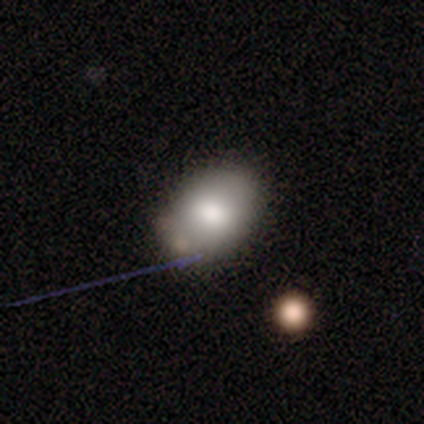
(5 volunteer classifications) Morphology: type=smooth (100%); roundness=in between (100%); merging=none (100%).